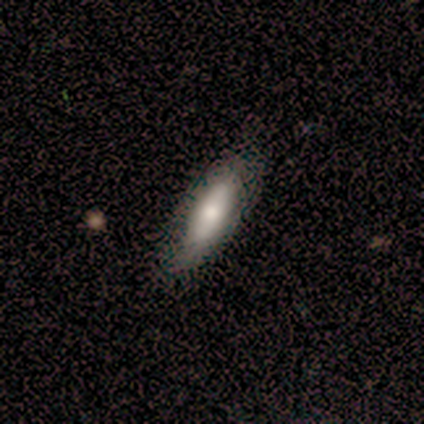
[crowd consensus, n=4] Smooth or featured?
  - smooth: 50% * (tied)
  - featured or disk: 50% * (tied)
  - star or artifact: 0%
How rounded?
  - in between: 50% * (tied)
  - cigar-shaped: 50% * (tied)
  - round: 0%
Merging?
  - none: 100% *
  - minor disturbance: 0%
  - major disturbance: 0%
  - merger: 0%